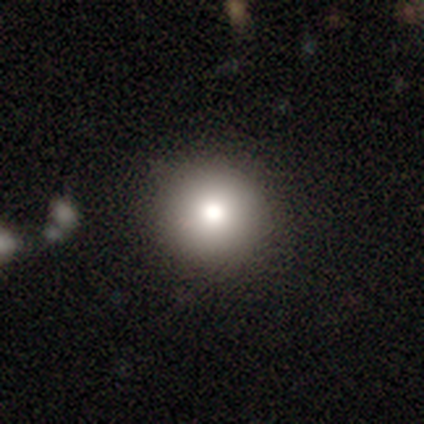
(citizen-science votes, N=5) Overall: smooth (60%; featured or disk 20%). How rounded: round (100%). Merging: none (100%).